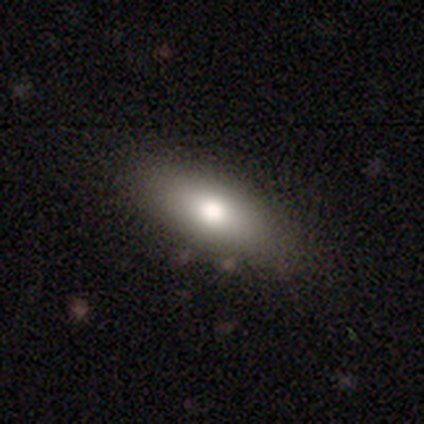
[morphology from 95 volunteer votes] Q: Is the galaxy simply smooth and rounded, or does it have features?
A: smooth — 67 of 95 (71%).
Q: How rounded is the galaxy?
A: in between — 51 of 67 (76%).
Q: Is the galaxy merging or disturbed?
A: none — 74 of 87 (85%).